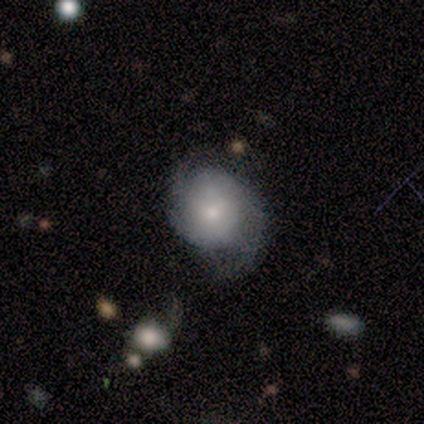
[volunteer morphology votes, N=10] featured or disk 60%, smooth 40%, star or artifact 0%. Down the decision tree: edge-on disk — no (100%); bar — no (100%); spiral arms — yes (100%); spiral arm count — 2 (50%); spiral winding — medium (67%); bulge size — moderate (67%); merging — none (60%).